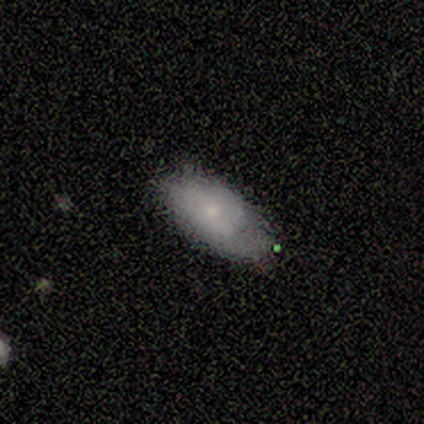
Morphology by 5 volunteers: Smooth or featured? 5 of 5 (100%) said smooth. How rounded? 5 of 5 (100%) said in between. Merging? 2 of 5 (40%, tied with minor disturbance) said none.